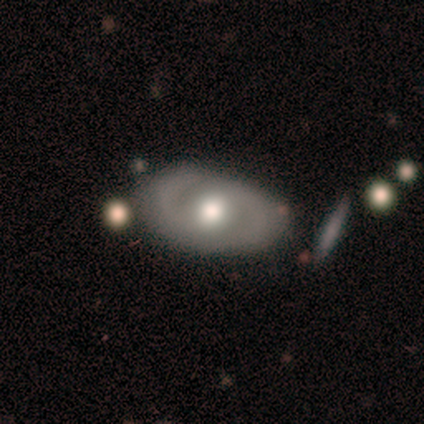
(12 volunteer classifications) Smooth or featured: featured or disk — 67% (smooth — 25%)
Edge-on disk: no — 88% (yes — 12%)
Bar: weak — 43% (tied with no — 43%)
Spiral arms: yes — 100%
Spiral winding: tight — 57% (medium — 29%)
Spiral arm count: 2 — 86% (can't tell — 14%)
Bulge size: moderate — 86% (small — 14%)
Merging: none — 64% (major disturbance — 18%)